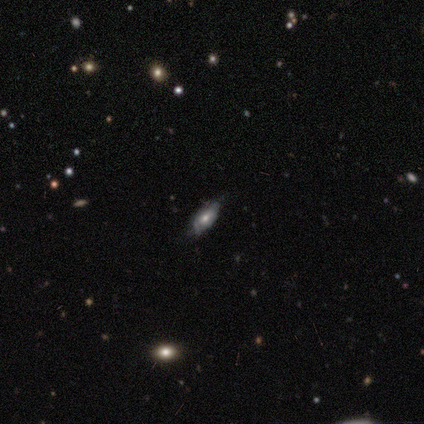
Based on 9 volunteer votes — Smooth or featured: star or artifact — 44% (smooth — 33%)